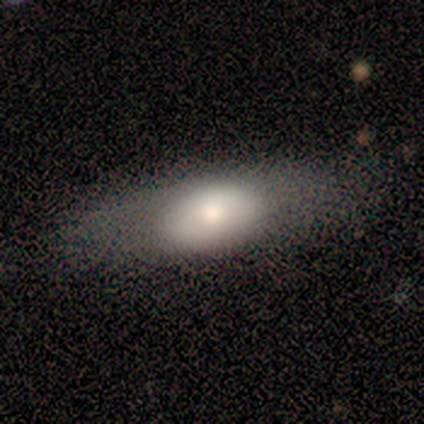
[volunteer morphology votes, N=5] Q: Smooth or featured?
A: smooth (60%); runner-up: featured or disk (40%)
Q: How rounded?
A: in between (100%)
Q: Merging?
A: none (60%); runner-up: minor disturbance (20%)